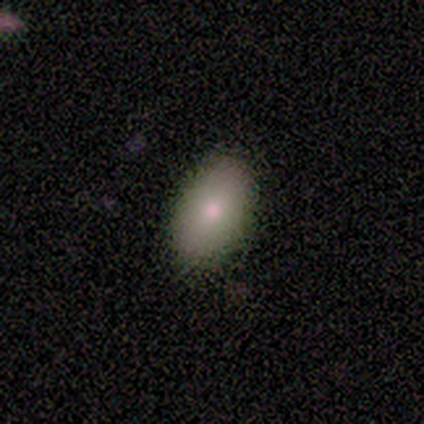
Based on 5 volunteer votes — This is marginally a smooth galaxy (40%, tied with featured or disk). How rounded: clearly in between (100%). Merging: clearly none (100%).